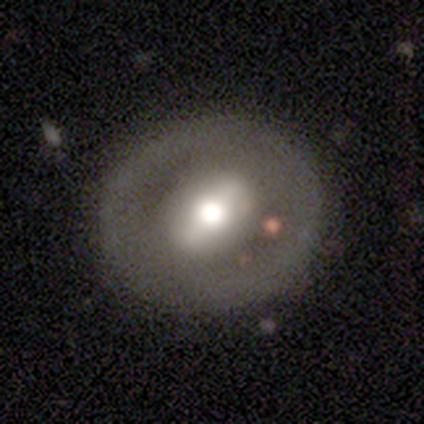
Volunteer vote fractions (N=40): A featured or disk galaxy (65%) with a strong bar (60%), no spiral arms (96%) and a moderate central bulge (60%).

Vote fractions:
- Smooth or featured? featured or disk: 65% / smooth: 32% / star or artifact: 2%
- Edge-on disk? no: 96% / yes: 4%
- Bar? strong: 60% / weak: 24% / no: 16%
- Spiral arms? no: 96% / yes: 4%
- Bulge size? moderate: 60% / large: 32% / dominant: 4% / small: 4% / none: 0%
- Merging? none: 87% / minor disturbance: 5% / major disturbance: 5% / merger: 3%